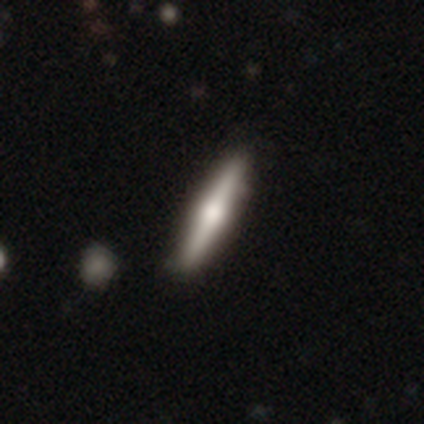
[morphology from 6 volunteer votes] This appears to be a featured or disk galaxy (67%) viewed edge-on (100%) with a rounded central bulge (100%). Merging: none (67%).